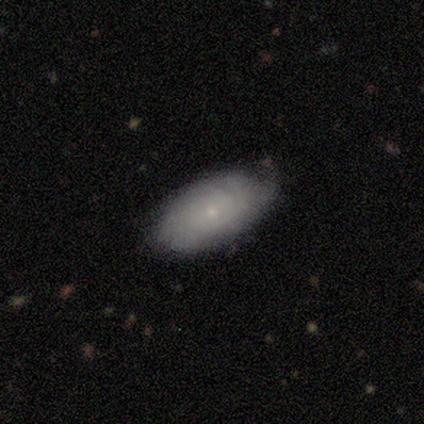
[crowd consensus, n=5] smooth-or-featured: featured or disk: 60% | smooth: 40% | star or artifact: 0%
  disk-edge-on: no: 100% | yes: 0%
    bar: no: 67% | weak: 33% | strong: 0%
    has-spiral-arms: yes: 100% | no: 0%
      spiral-winding: tight: 100% | medium: 0% | loose: 0%
      spiral-arm-count: can't tell: 100% | 1: 0% | 2: 0% | 3: 0% | 4: 0% | more than 4: 0%
    bulge-size: small: 100% | dominant: 0% | large: 0% | moderate: 0% | none: 0%
  merging: none: 80% | minor disturbance: 20% | major disturbance: 0% | merger: 0%